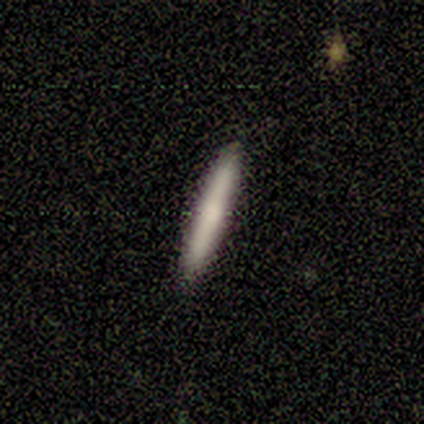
A smooth galaxy with no disk features (100%) that is cigar-shaped (100%). Merging: none (100%).